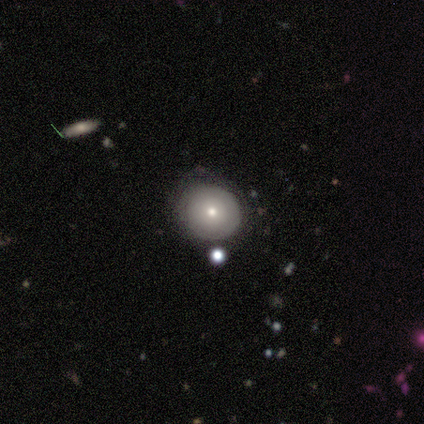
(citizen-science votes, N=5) This appears to be a smooth galaxy with no disk features (80%) that is round (100%). Merging: none (60%).